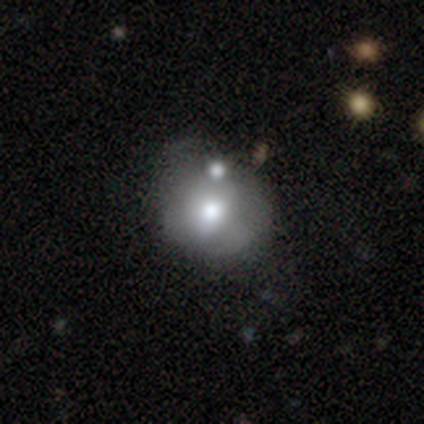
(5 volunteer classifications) Smooth or featured?
  - featured or disk: 60% *
  - smooth: 20%
  - star or artifact: 20%
Edge-on disk?
  - no: 100% *
  - yes: 0%
Bar?
  - no: 100% *
  - strong: 0%
  - weak: 0%
Spiral arms?
  - no: 100% *
  - yes: 0%
Bulge size?
  - moderate: 67% *
  - large: 33%
  - dominant: 0%
  - small: 0%
  - none: 0%
Merging?
  - none: 50% * (tied)
  - minor disturbance: 50% * (tied)
  - major disturbance: 0%
  - merger: 0%